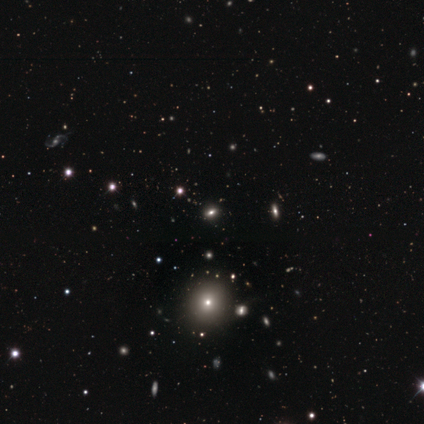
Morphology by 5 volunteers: smooth_or_featured: smooth (p=0.80) [alt: star or artifact p=0.20]
how_rounded: round (p=0.75) [alt: in between p=0.25]
merging: none (p=1.00)